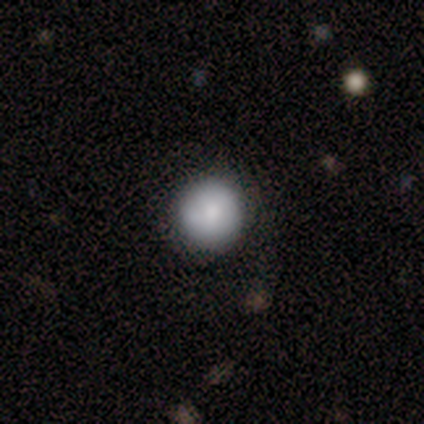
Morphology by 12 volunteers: smooth 100%, featured or disk 0%, star or artifact 0%. Down the decision tree: how rounded — round (100%); merging — none (92%).